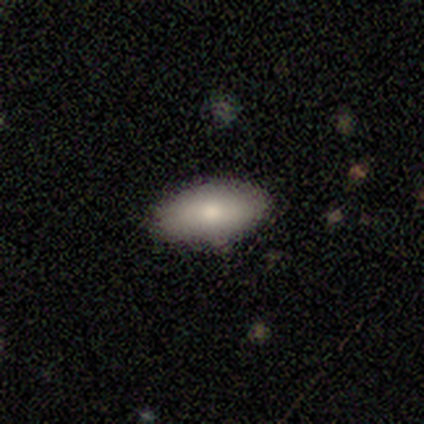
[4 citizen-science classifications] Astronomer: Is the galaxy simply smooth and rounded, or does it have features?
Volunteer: smooth — 75%.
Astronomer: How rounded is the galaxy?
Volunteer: in between — 100%.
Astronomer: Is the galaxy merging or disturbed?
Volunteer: none — 100%.